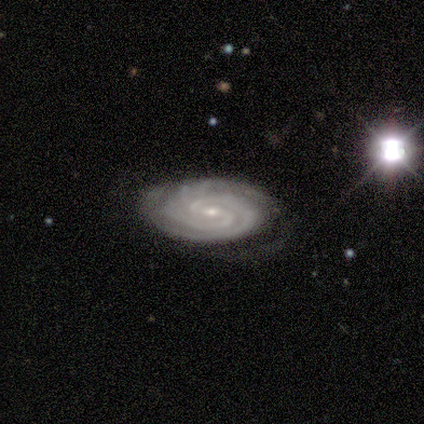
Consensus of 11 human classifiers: This is clearly a featured or disk galaxy (91%). It is clearly not viewed edge-on (100%). Bar: likely weak (60%). Spiral arm pattern: clearly yes (100%). Spiral arm count: clearly 2 (80%). Spiral winding: likely tight (70%). Central bulge: clearly small (90%). Merging: likely none (64%).